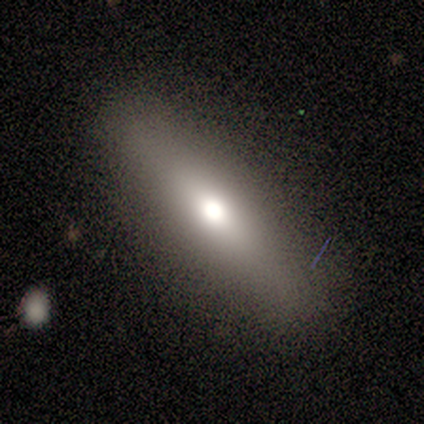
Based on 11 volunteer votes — This appears to be a smooth galaxy with no disk features (73%) that is cigar-shaped (75%). Merging: none (100%).